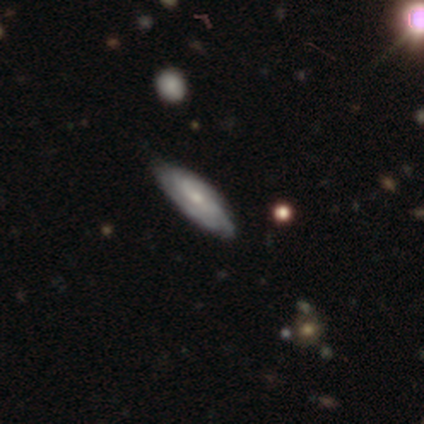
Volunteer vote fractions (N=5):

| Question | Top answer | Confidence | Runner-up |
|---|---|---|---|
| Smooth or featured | featured or disk | 60% | smooth (40%) |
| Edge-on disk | no | 100% | — |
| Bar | weak | 67% | no (33%) |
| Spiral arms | yes | 100% | — |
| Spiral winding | tight | 67% | medium (33%) |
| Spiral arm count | can't tell | 67% | 3 (33%) |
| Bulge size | small | 67% | moderate (33%) |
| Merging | none | 60% | minor disturbance (40%) |